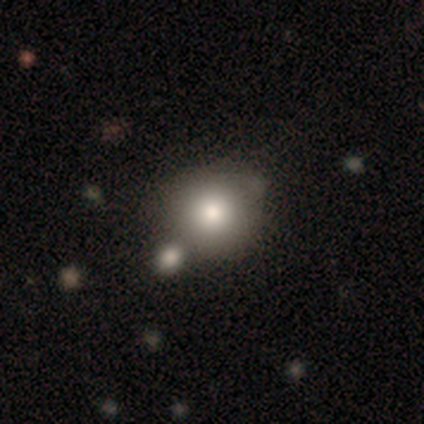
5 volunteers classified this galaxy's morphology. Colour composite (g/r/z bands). It shows a smooth galaxy with no disk features (80%) that is round (100%). Merging: none (60%).